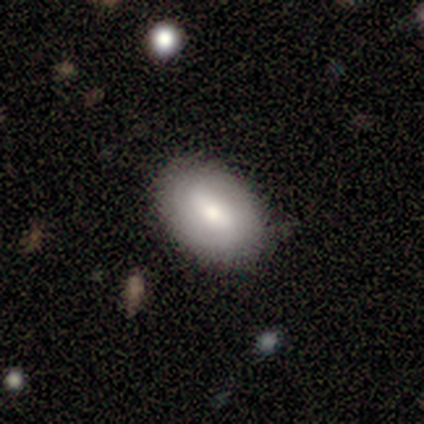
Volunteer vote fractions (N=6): This is possibly a smooth galaxy (50%, tied with featured or disk). How rounded: likely in between (67%). Merging: likely none (67%).